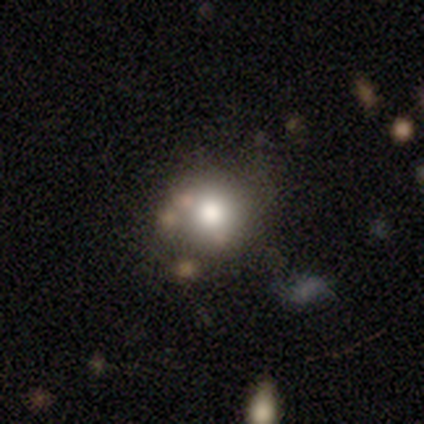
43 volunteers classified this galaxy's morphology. type=smooth (70%); roundness=round (93%); merging=none (66%).